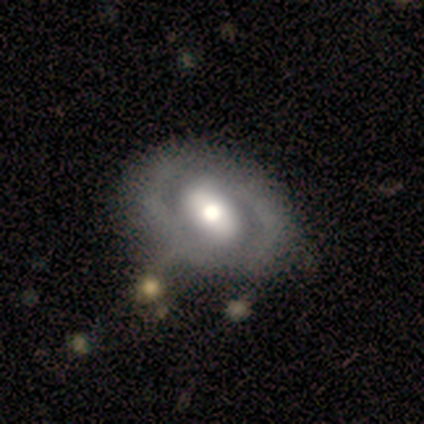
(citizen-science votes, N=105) Smooth or featured?
  - featured or disk: 73% *
  - smooth: 19%
  - star or artifact: 8%
Edge-on disk?
  - no: 97% *
  - yes: 3%
Bar?
  - weak: 45% *
  - strong: 29%
  - no: 25%
Spiral arms?
  - yes: 60% *
  - no: 40%
Spiral winding?
  - tight: 53% *
  - medium: 42%
  - loose: 4%
Spiral arm count?
  - 2: 76% *
  - can't tell: 18%
  - 1: 4%
  - 3: 2%
  - 4: 0%
  - more than 4: 0%
Bulge size?
  - moderate: 56% *
  - large: 36%
  - dominant: 5%
  - small: 3%
  - none: 0%
Merging?
  - none: 64% *
  - minor disturbance: 27%
  - merger: 7%
  - major disturbance: 2%